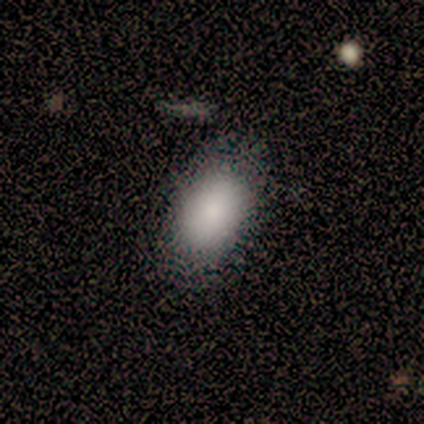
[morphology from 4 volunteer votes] Smooth or featured? 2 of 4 (50%) said smooth. How rounded? 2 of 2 (100%) said in between. Merging? 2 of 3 (67%) said minor disturbance.